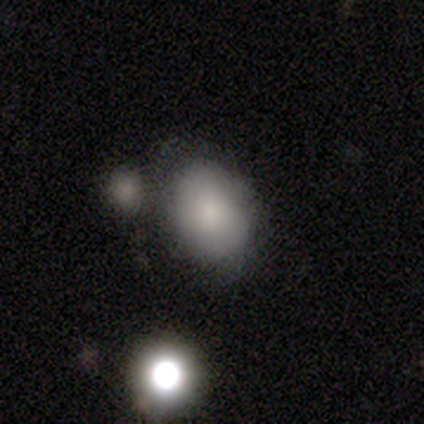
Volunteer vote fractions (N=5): smooth_or_featured: smooth (p=1.00)
how_rounded: in between (p=0.60) [alt: round p=0.40]
merging: minor disturbance (p=0.60) [alt: none p=0.20]